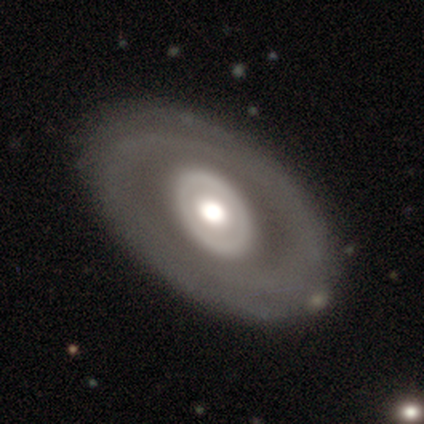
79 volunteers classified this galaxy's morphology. featured or disk 63%, smooth 33%, star or artifact 4%. Down the decision tree: edge-on disk — no (98%); bar — no (94%); spiral arms — no (80%); bulge size — moderate (59%); merging — none (45%).